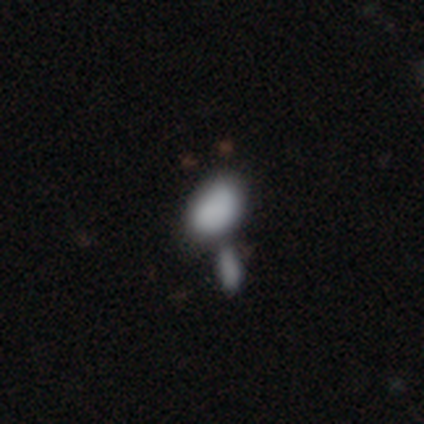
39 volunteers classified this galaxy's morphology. type=smooth (72%); roundness=in between (89%); merging=merger (51%).